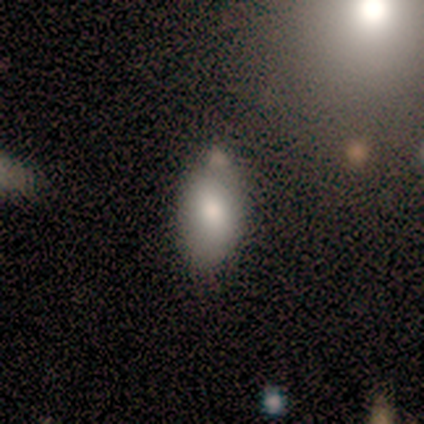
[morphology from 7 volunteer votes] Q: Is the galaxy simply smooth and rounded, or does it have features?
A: smooth — 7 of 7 (100%).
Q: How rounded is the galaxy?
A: in between — 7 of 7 (100%).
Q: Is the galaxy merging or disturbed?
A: none — 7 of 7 (100%).